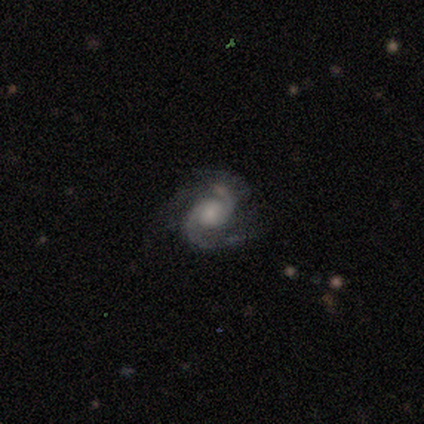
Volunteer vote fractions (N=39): smooth_or_featured: featured or disk (p=0.90) [alt: star or artifact p=0.08]
disk_edge_on: no (p=0.97) [alt: yes p=0.03]
bar: no (p=0.79) [alt: weak p=0.21]
has_spiral_arms: yes (p=1.00)
spiral_winding: medium (p=0.47) [alt: tight p=0.35]
spiral_arm_count: 2 (p=0.85) [alt: 3 p=0.09]
bulge_size: small (p=0.41) [alt: large p=0.29]
merging: none (p=0.78) [alt: minor disturbance p=0.14]